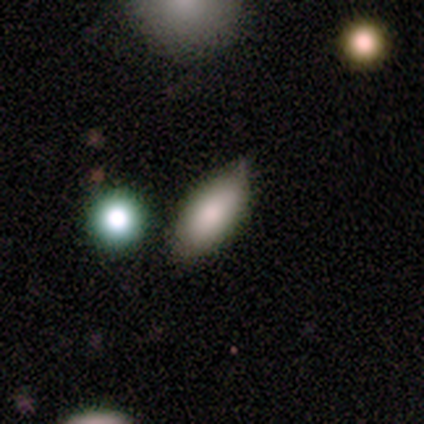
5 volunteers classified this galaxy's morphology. A smooth galaxy with no disk features (100%) that is in between round and cigar-shaped (100%).

Vote fractions:
- Smooth or featured? smooth: 100% / featured or disk: 0% / star or artifact: 0%
- How rounded? in between: 100% / round: 0% / cigar-shaped: 0%
- Merging? none: 80% / minor disturbance: 20% / major disturbance: 0% / merger: 0%